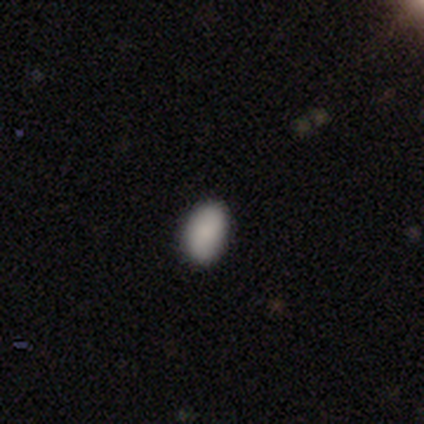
smooth 100%, featured or disk 0%, star or artifact 0%. Down the decision tree: how rounded — in between (100%); merging — none (80%).